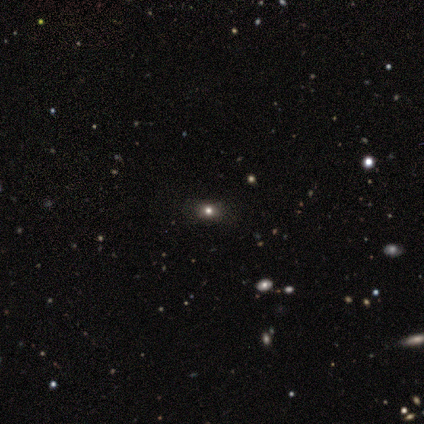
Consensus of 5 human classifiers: Smooth or featured: smooth — 60% (star or artifact — 40%)
How rounded: round — 100%
Merging: none — 100%